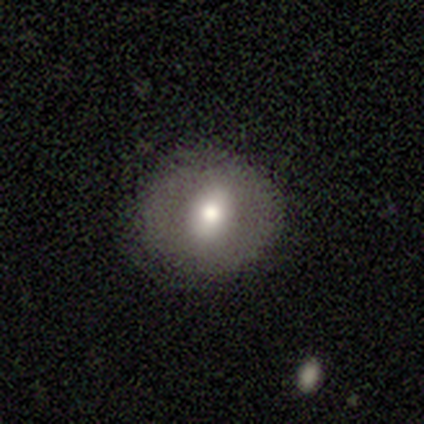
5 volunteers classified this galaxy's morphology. Smooth or featured?
  - smooth: 80% *
  - featured or disk: 20%
  - star or artifact: 0%
How rounded?
  - round: 50% * (tied)
  - in between: 50% * (tied)
  - cigar-shaped: 0%
Merging?
  - none: 80% *
  - minor disturbance: 20%
  - major disturbance: 0%
  - merger: 0%